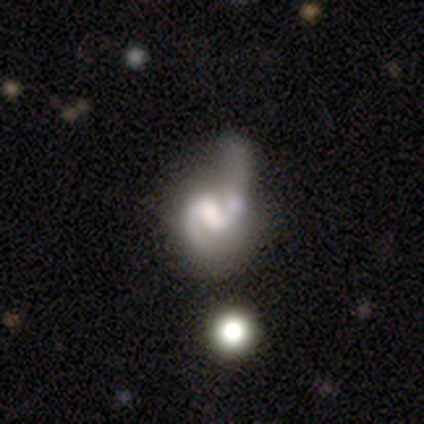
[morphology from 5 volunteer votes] Smooth or featured? featured or disk (80%)
Edge-on disk? no (100%)
Bar? weak (75%)
Spiral arms? yes (100%)
Spiral winding? tight (50%, tied with loose)
Spiral arm count? 2 (75%)
Bulge size? none (50%)
Merging? minor disturbance (40%, tied with major disturbance)